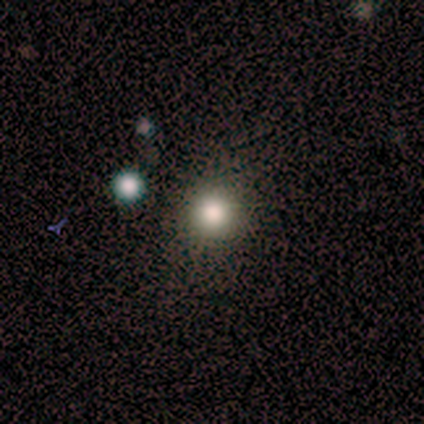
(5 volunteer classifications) smooth_or_featured: smooth (p=0.60) [alt: star or artifact p=0.40]
how_rounded: round (p=1.00)
merging: none (p=1.00)